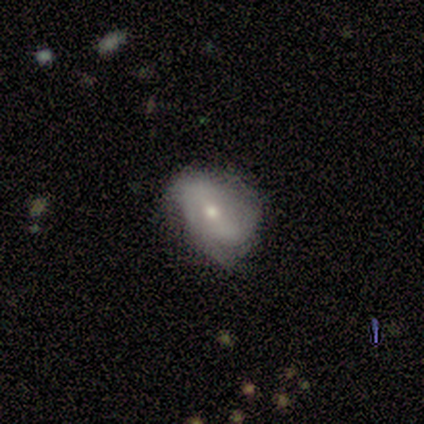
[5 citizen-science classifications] Volunteers were most divided on "spiral arm count" (2-way tie): 3: 50%, can't tell: 50%, 1: 0%, 2: 0%, 4: 0%, more than 4: 0%; "bulge size" (3-way tie): dominant: 33%, moderate: 33%, small: 33%, large: 0%, none: 0%. More confident: edge-on disk — no (100%); spiral winding — loose (100%); merging — none (100%); bar — no (67%); spiral arms — yes (67%); smooth or featured — featured or disk (60%).